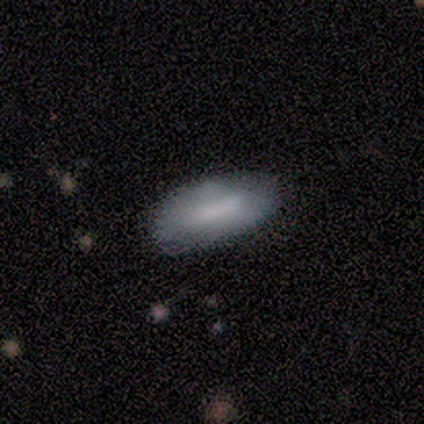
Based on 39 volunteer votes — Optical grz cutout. It shows a smooth galaxy with no disk features (64%) that is in between round and cigar-shaped (84%). Merging: none (71%).